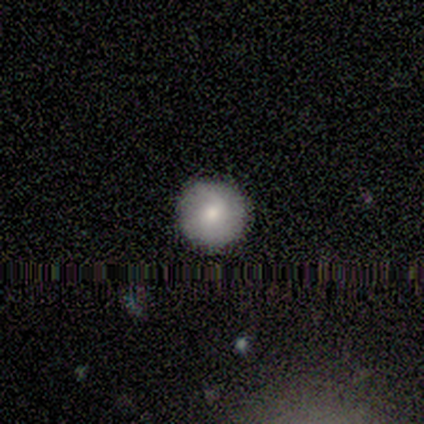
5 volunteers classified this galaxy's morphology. smooth_or_featured: smooth (p=0.60) [alt: featured or disk p=0.40]
how_rounded: round (p=1.00)
merging: none (p=1.00)